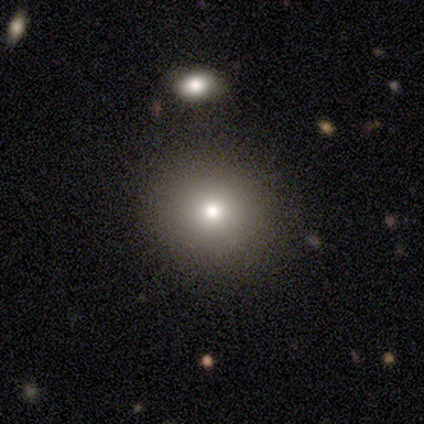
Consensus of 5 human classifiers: smooth-or-featured: featured or disk: 60% | smooth: 20% | star or artifact: 20%
  disk-edge-on: no: 100% | yes: 0%
    bar: no: 100% | strong: 0% | weak: 0%
    has-spiral-arms: no: 100% | yes: 0%
    bulge-size: small: 67% | moderate: 33% | dominant: 0% | large: 0% | none: 0%
  merging: none: 100% | minor disturbance: 0% | major disturbance: 0% | merger: 0%